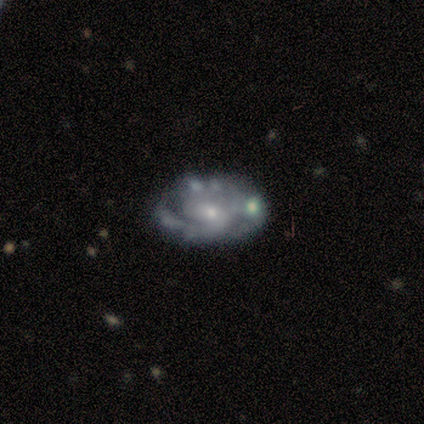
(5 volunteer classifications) A featured or disk galaxy (80%) with no bar (50%), 2 (75%) tight (75%) spiral arms (100%) and a small central bulge (75%).

Vote fractions:
- Smooth or featured? featured or disk: 80% / star or artifact: 20% / smooth: 0%
- Edge-on disk? no: 100% / yes: 0%
- Bar? no: 50% / strong: 25% / weak: 25%
- Spiral arms? yes: 100% / no: 0%
- Spiral winding? tight: 75% / medium: 25% / loose: 0%
- Spiral arm count? 2: 75% / 1: 25% / 3: 0% / 4: 0% / more than 4: 0% / can't tell: 0%
- Bulge size? small: 75% / moderate: 25% / dominant: 0% / large: 0% / none: 0%
- Merging? major disturbance: 50% / none: 25% / minor disturbance: 25% / merger: 0%